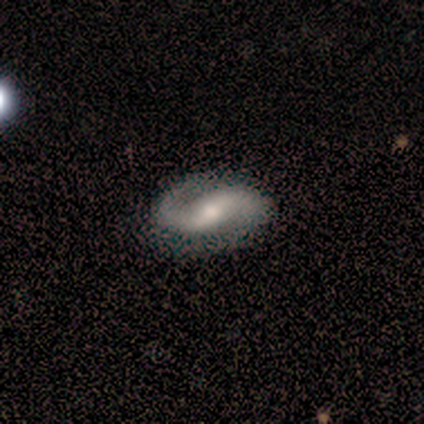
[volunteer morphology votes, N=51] type=featured or disk (94%); edge-on=no (96%); bar=weak (41%); spiral arms=yes (96%); winding=medium (43%); arm count=2 (93%); bulge=moderate (65%); merging=none (83%).